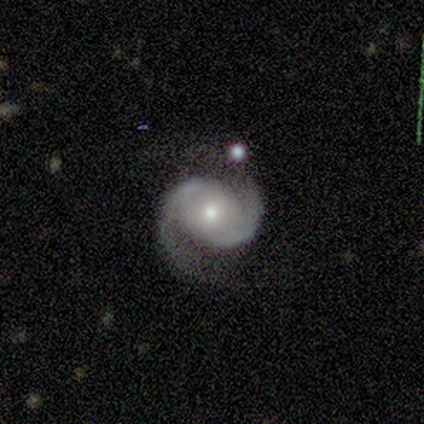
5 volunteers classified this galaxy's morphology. Smooth or featured: featured or disk — 100%
Edge-on disk: no — 100%
Bar: no — 80% (weak — 20%)
Spiral arms: yes — 100%
Spiral winding: medium — 60% (tight — 20%)
Spiral arm count: 2 — 100%
Bulge size: moderate — 100%
Merging: none — 40% (tied with minor disturbance — 40%)